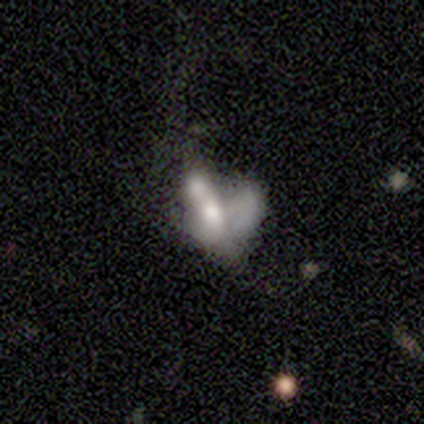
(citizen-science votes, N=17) This appears to be a smooth galaxy with no disk features (71%) that is in between round and cigar-shaped (67%). Merging: merger (73%).